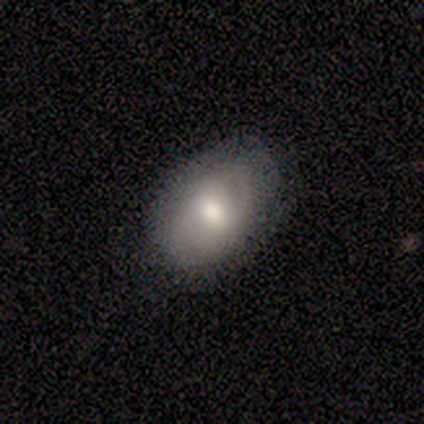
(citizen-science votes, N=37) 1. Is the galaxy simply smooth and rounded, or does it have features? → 70% smooth, 27% featured or disk, 3% star or artifact.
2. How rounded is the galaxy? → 77% in between, 23% round, 0% cigar-shaped.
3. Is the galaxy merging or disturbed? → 81% none, 19% minor disturbance, 0% major disturbance, 0% merger.